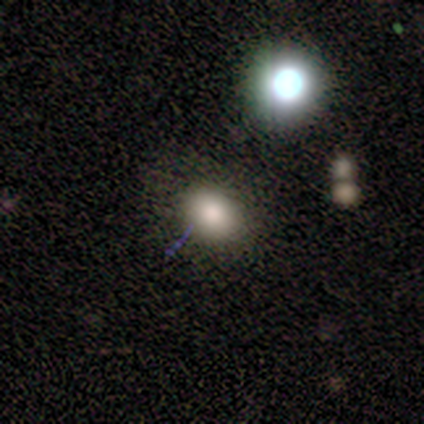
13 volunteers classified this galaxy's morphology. smooth_or_featured: smooth (p=0.92) [alt: star or artifact p=0.08]
how_rounded: in between (p=0.75) [alt: round p=0.25]
merging: none (p=0.75) [alt: minor disturbance p=0.17]